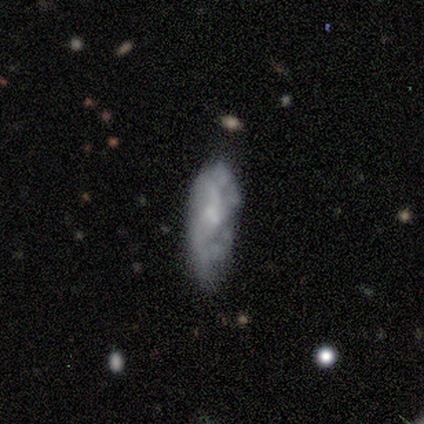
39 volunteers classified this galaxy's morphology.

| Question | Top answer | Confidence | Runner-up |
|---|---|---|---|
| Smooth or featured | featured or disk | 79% | smooth (15%) |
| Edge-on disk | no | 87% | yes (13%) |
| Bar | no | 81% | weak (19%) |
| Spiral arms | no | 70% | yes (30%) |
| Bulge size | small | 56% | none (30%) |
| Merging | minor disturbance | 43% | none (38%) |